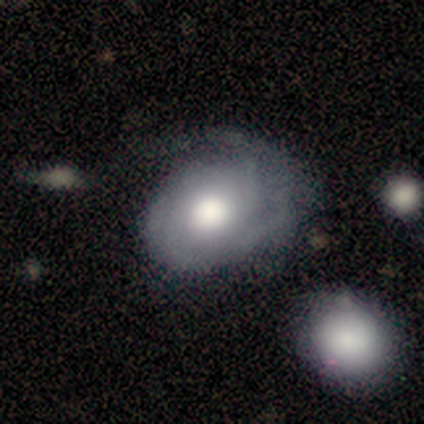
This appears to be a featured or disk galaxy (64%) with no bar (87%), 3 (37%) tight (53%) spiral arms (83%) and a large central bulge (65%). Merging: none (56%).